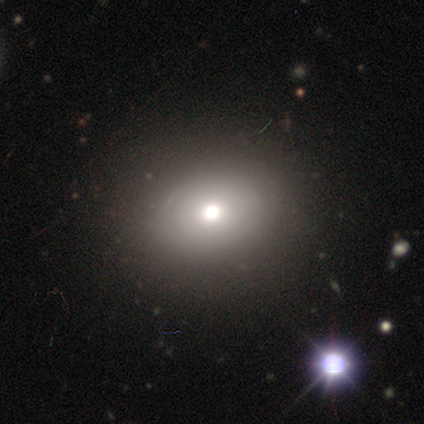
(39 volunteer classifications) Smooth or featured: featured or disk — 41% (smooth — 36%)
Edge-on disk: no — 88% (yes — 12%)
Bar: no — 100%
Spiral arms: no — 79% (yes — 21%)
Bulge size: large — 43% (moderate — 36%)
Merging: none — 70% (minor disturbance — 3%)